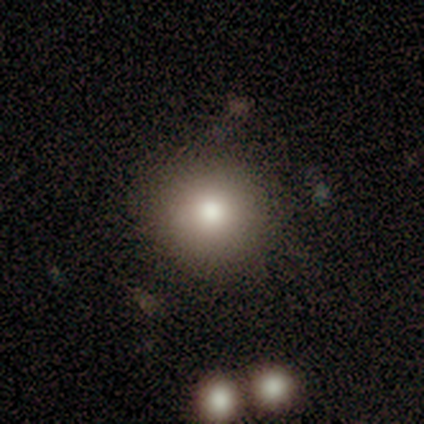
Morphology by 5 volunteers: A smooth galaxy with no disk features (40%, tied with featured or disk) that is round (100%).

Vote fractions:
- Smooth or featured? smooth: 40% (tied) / featured or disk: 40% (tied) / star or artifact: 20%
- How rounded? round: 100% / in between: 0% / cigar-shaped: 0%
- Merging? none: 75% / minor disturbance: 25% / major disturbance: 0% / merger: 0%